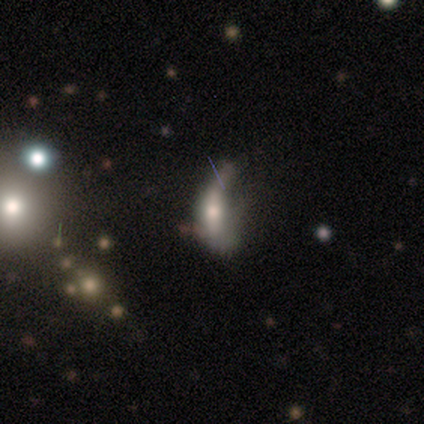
Q: Smooth or featured?
A: featured or disk (53%); runner-up: smooth (37%)
Q: Edge-on disk?
A: no (55%); runner-up: yes (45%)
Q: Bar?
A: weak (45%); runner-up: no (36%)
Q: Spiral arms?
A: no (91%); runner-up: yes (9%)
Q: Bulge size?
A: small (45%); runner-up: large (27%)
Q: Merging?
A: major disturbance (59%); runner-up: minor disturbance (26%)